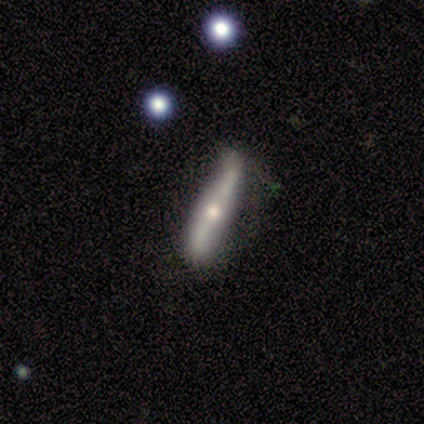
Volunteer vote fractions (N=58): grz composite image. It shows a featured or disk galaxy (76%) viewed edge-on (66%) with a rounded central bulge (93%). Merging: none (68%).